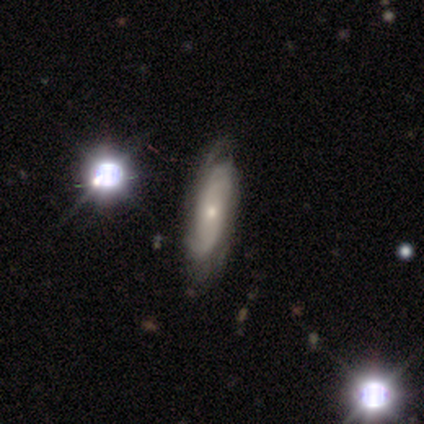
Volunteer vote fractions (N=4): Volunteers were most divided on "spiral arms": no: 67%, yes: 33%. More confident: edge-on disk — no (100%); bar — no (100%); smooth or featured — featured or disk (75%); bulge size — small (67%); merging — none (67%).